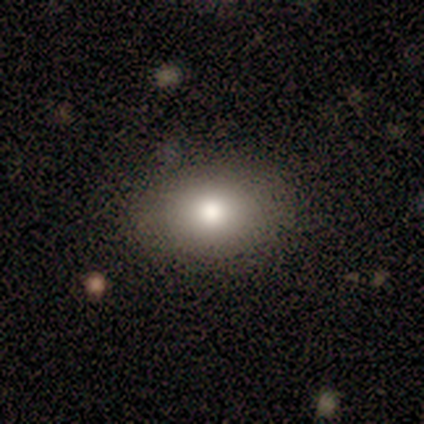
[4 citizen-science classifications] smooth 75%, star or artifact 25%, featured or disk 0%. Down the decision tree: how rounded — in between (67%); merging — none (67%).